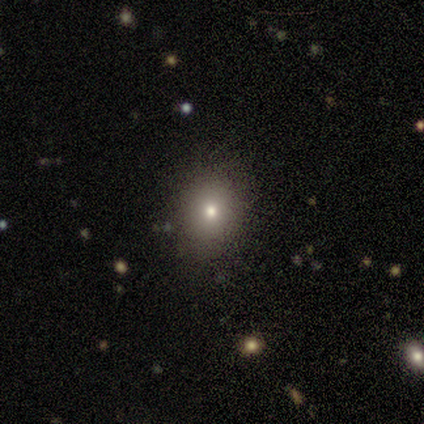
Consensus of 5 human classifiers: smooth-or-featured: smooth: 80% | featured or disk: 20% | star or artifact: 0%
  how-rounded: round: 75% | in between: 25% | cigar-shaped: 0%
  merging: none: 60% | minor disturbance: 20% | major disturbance: 20% | merger: 0%